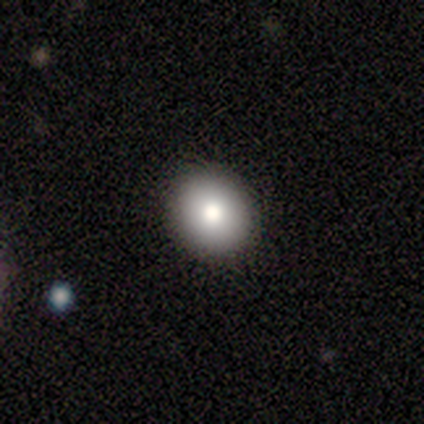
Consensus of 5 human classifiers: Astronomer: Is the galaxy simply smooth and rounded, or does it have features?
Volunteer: smooth — 100%.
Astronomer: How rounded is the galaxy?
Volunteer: round — 80%.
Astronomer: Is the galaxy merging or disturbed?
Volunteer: none — 100%.